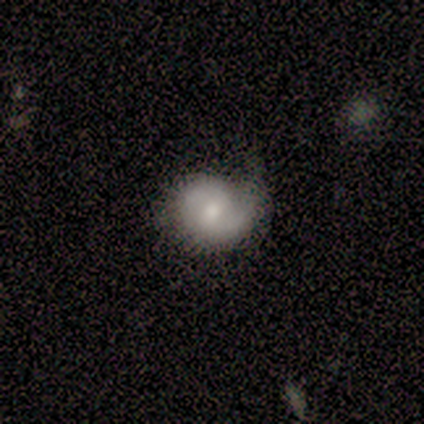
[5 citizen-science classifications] Overall: featured or disk (100%). Edge-on disk: no (100%). Bar: weak (80%). Spiral arms: yes (100%). Spiral arm count: 2 (80%). Spiral winding: medium (60%; tight 20%). Bulge size: moderate (60%; small 40%). Merging: none (60%; minor disturbance 40%).